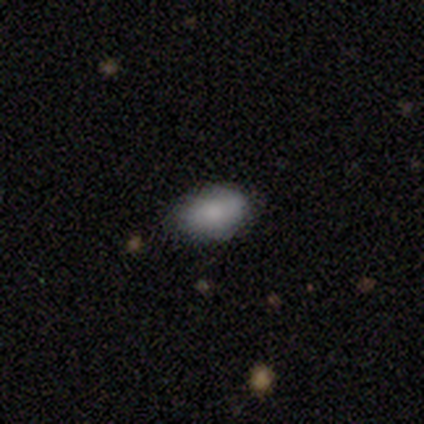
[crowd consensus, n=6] Smooth or featured? 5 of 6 (83%) said smooth. How rounded? 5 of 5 (100%) said in between. Merging? 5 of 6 (83%) said none.